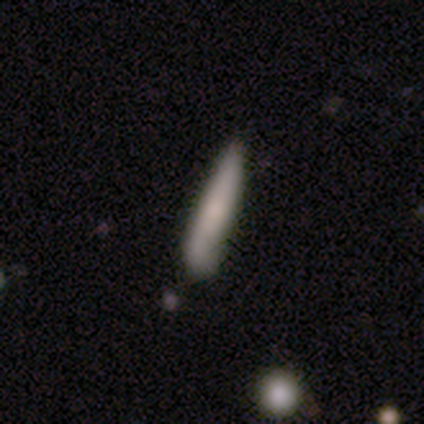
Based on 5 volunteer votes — This is clearly a smooth galaxy (80%). How rounded: clearly cigar-shaped (100%). Merging: likely none (60%).